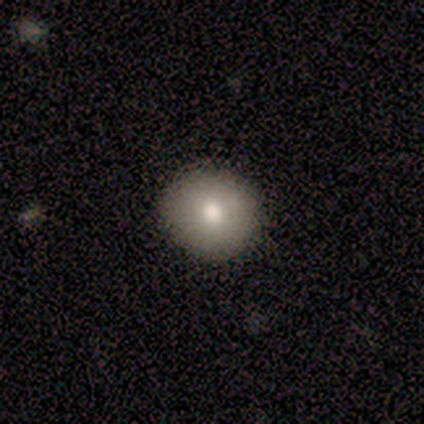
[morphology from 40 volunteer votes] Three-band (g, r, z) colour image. It shows a smooth galaxy with no disk features (82%) that is round (94%). Merging: none (76%).